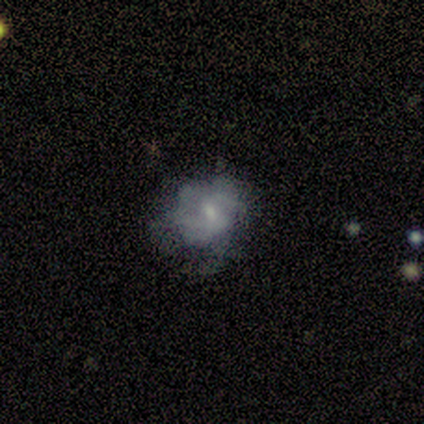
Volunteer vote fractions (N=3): Overall: featured or disk (100%). Edge-on disk: no (100%). Bar: no (100%). Spiral arms: no (100%). Bulge size: small (67%; moderate 33%). Merging: none (67%; major disturbance 33%).